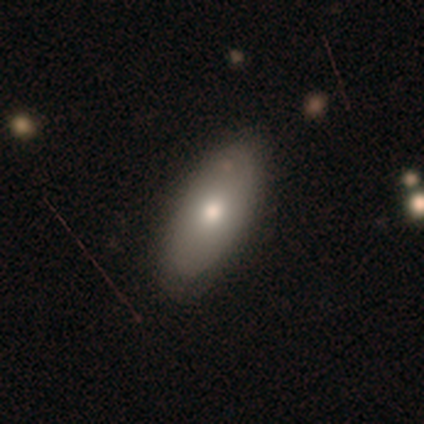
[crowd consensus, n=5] smooth_or_featured: smooth (p=0.80) [alt: featured or disk p=0.20]
how_rounded: in between (p=1.00)
merging: none (p=0.60) [alt: minor disturbance p=0.40]